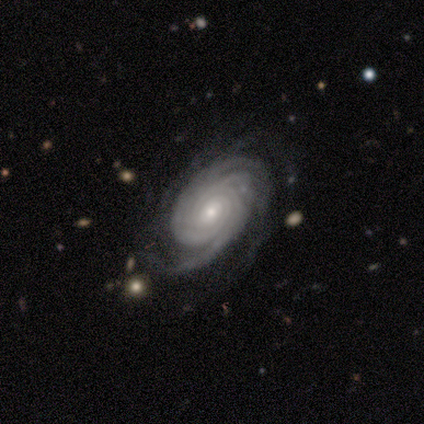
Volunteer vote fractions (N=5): smooth_or_featured: featured or disk (p=1.00)
disk_edge_on: no (p=1.00)
bar: no (p=0.60) [alt: strong p=0.20]
has_spiral_arms: yes (p=1.00)
spiral_winding: tight (p=1.00)
spiral_arm_count: 4 (p=0.40) [tied with: more than 4 p=0.40]
bulge_size: small (p=0.80) [alt: moderate p=0.20]
merging: none (p=0.80) [alt: minor disturbance p=0.20]